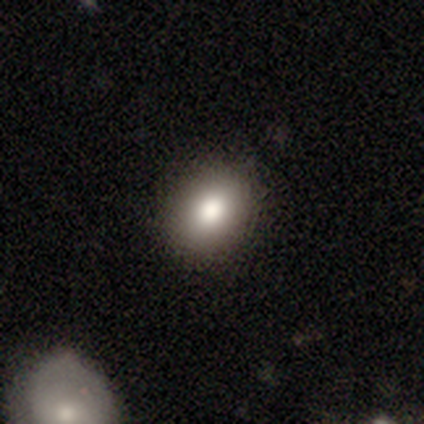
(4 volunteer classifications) smooth 100%, featured or disk 0%, star or artifact 0%. Down the decision tree: how rounded — round (75%); merging — none (100%).